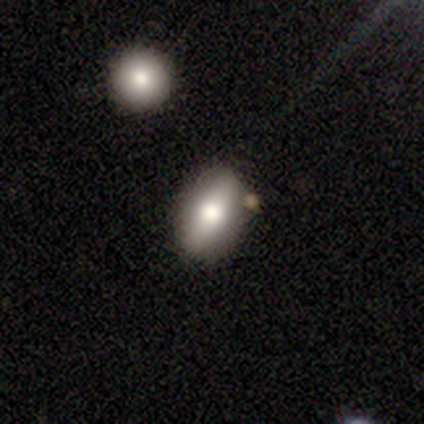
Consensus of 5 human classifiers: Volunteers were most divided on "merging": none: 75%, minor disturbance: 25%, major disturbance: 0%, merger: 0%. More confident: how rounded — in between (100%); smooth or featured — smooth (80%).